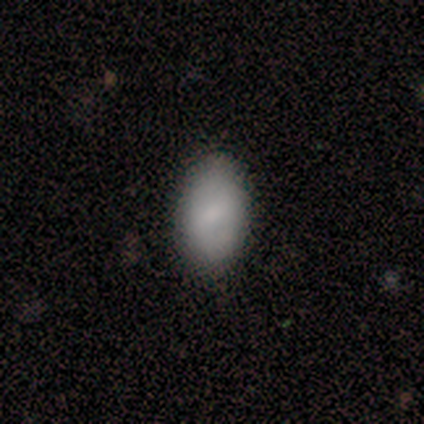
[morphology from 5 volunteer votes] Smooth or featured? 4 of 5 (80%) said smooth. How rounded? 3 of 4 (75%) said in between. Merging? 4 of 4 (100%) said none.